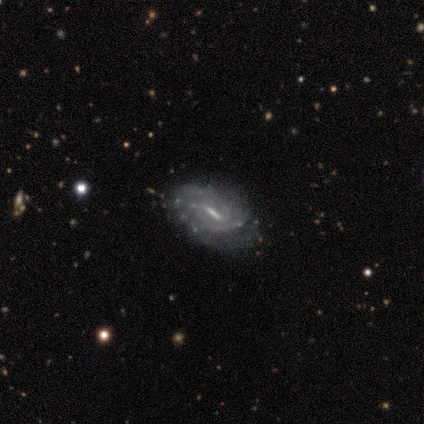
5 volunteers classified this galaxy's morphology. smooth-or-featured: featured or disk: 100% | smooth: 0% | star or artifact: 0%
  disk-edge-on: no: 100% | yes: 0%
    bar: strong: 80% | weak: 20% | no: 0%
    has-spiral-arms: yes: 100% | no: 0%
      spiral-winding: tight: 60% | medium: 20% | loose: 20%
      spiral-arm-count: can't tell: 60% | 2: 20% | more than 4: 20% | 1: 0% | 3: 0% | 4: 0%
    bulge-size: small: 100% | dominant: 0% | large: 0% | moderate: 0% | none: 0%
  merging: none: 80% | minor disturbance: 20% | major disturbance: 0% | merger: 0%